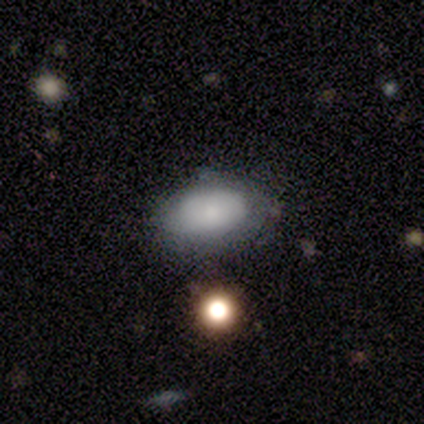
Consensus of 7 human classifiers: Smooth or featured? smooth (86%)
How rounded? in between (100%)
Merging? none (71%)